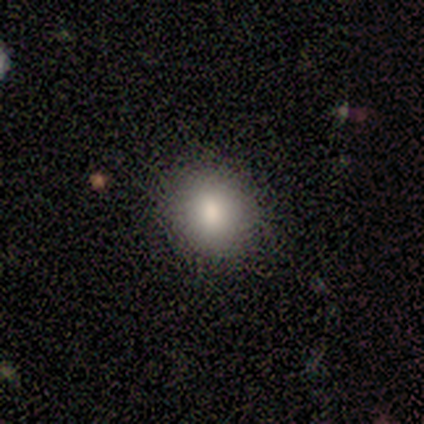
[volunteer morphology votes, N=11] This is clearly a smooth galaxy (82%). How rounded: clearly round (89%). Merging: clearly none (90%).